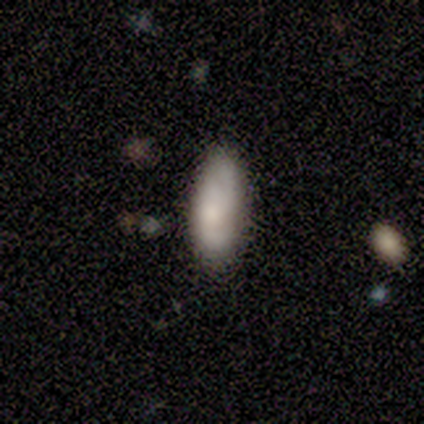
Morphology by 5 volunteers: Smooth or featured? 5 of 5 (100%) said smooth. How rounded? 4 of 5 (80%) said in between. Merging? 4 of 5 (80%) said none.